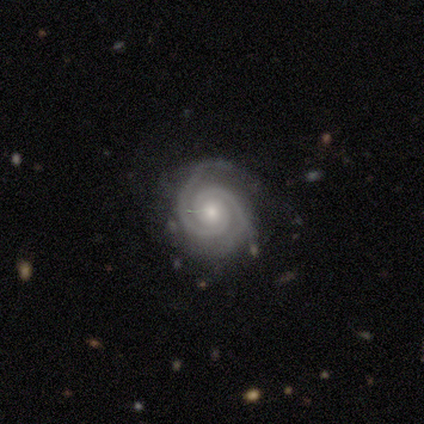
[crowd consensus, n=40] Volunteers were most divided on "bulge size": small: 53%, moderate: 47%, dominant: 0%, large: 0%, none: 0%. More confident: edge-on disk — no (100%); spiral arms — yes (100%); smooth or featured — featured or disk (90%); spiral winding — tight (86%); spiral arm count — 2 (83%); merging — none (81%); bar — no (81%).